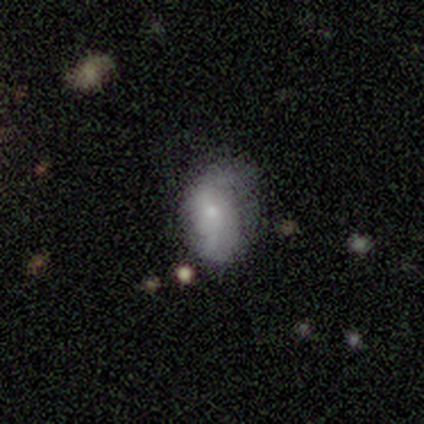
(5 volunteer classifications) Q: Smooth or featured?
A: smooth (60%); runner-up: featured or disk (40%)
Q: How rounded?
A: in between (100%)
Q: Merging?
A: minor disturbance (60%); runner-up: none (40%)